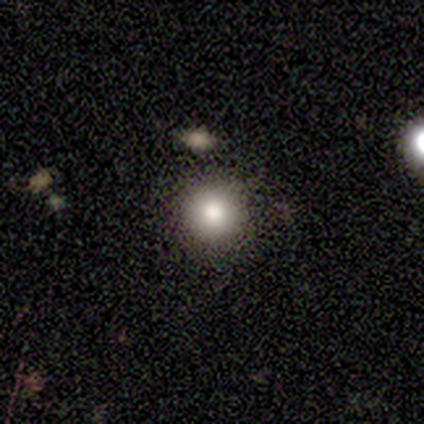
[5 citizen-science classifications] Overall: smooth (80%). How rounded: round (100%). Merging: none (100%).